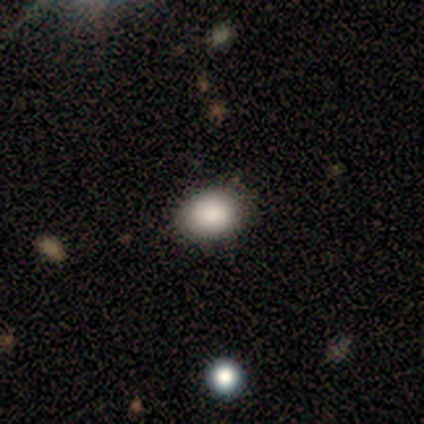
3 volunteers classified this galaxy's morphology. type=smooth (100%); roundness=in between (67%); merging=none (100%).